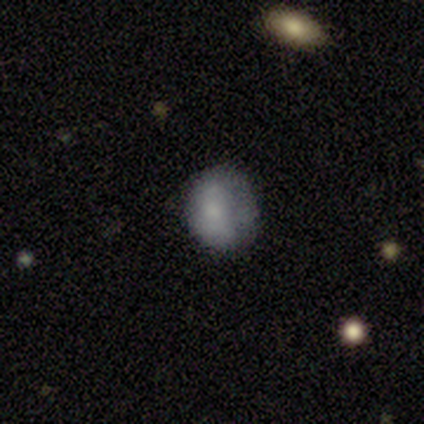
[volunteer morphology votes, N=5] This appears to be a smooth galaxy with no disk features (80%) that is round (50%, tied with in between). Merging: none (50%, tied with minor disturbance).